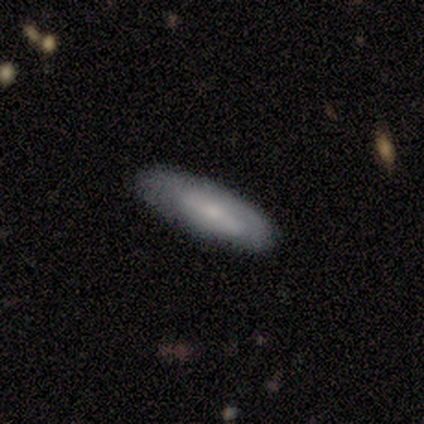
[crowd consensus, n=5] Overall: featured or disk (80%). Edge-on disk: yes (50%, tied with no). Edge-on bulge: none (50%, tied with rounded). Merging: none (60%; minor disturbance 20%).